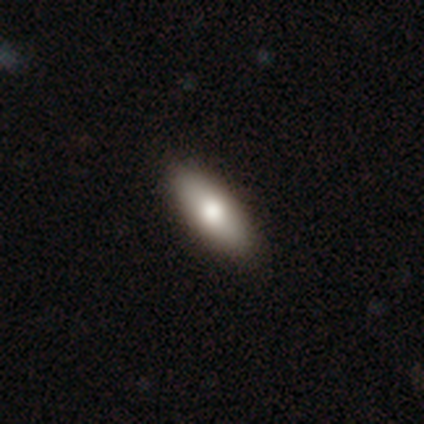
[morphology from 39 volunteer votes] Volunteers were most divided on "merging": none: 56%, minor disturbance: 3%, major disturbance: 3%, merger: 3%. More confident: smooth or featured — smooth (85%); how rounded — in between (82%).